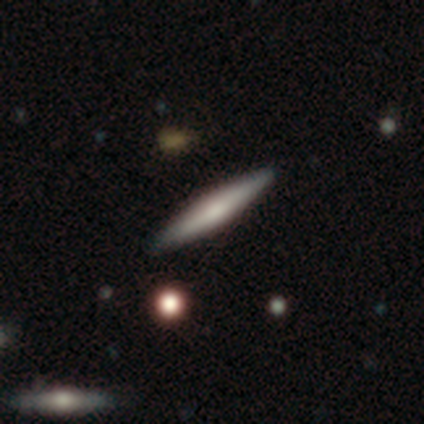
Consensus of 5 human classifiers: A featured or disk galaxy (60%) viewed edge-on (100%) with a rounded central bulge (67%).

Vote fractions:
- Smooth or featured? featured or disk: 60% / smooth: 40% / star or artifact: 0%
- Edge-on disk? yes: 100% / no: 0%
- Edge-on bulge? rounded: 67% / boxy: 33% / none: 0%
- Merging? none: 80% / minor disturbance: 20% / major disturbance: 0% / merger: 0%